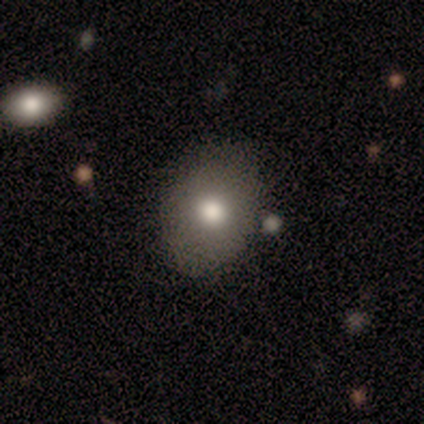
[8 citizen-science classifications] Smooth or featured: smooth — 75% (featured or disk — 25%)
How rounded: in between — 67% (round — 33%)
Merging: none — 50% (minor disturbance — 38%)